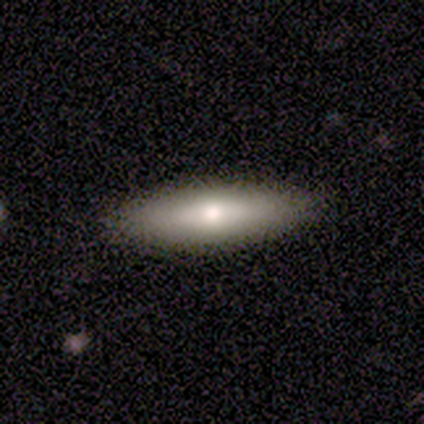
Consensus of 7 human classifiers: smooth-or-featured: smooth: 57% | featured or disk: 43% | star or artifact: 0%
  how-rounded: in between: 50% (tied) | cigar-shaped: 50% (tied) | round: 0%
  merging: none: 100% | minor disturbance: 0% | major disturbance: 0% | merger: 0%